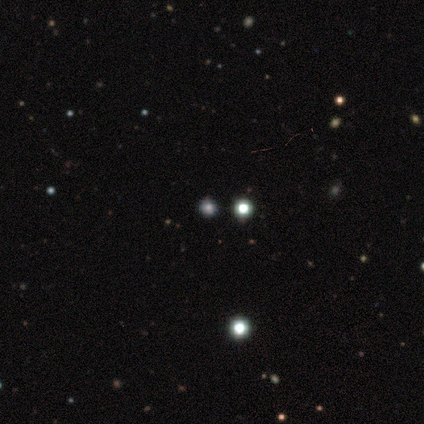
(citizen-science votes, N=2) A featured or disk galaxy (50%, tied with star or artifact) with no bar (100%), no spiral arms (100%) and a dominant central bulge (100%).

Vote fractions:
- Smooth or featured? featured or disk: 50% (tied) / star or artifact: 50% (tied) / smooth: 0%
- Edge-on disk? no: 100% / yes: 0%
- Bar? no: 100% / strong: 0% / weak: 0%
- Spiral arms? no: 100% / yes: 0%
- Bulge size? dominant: 100% / large: 0% / moderate: 0% / small: 0% / none: 0%
- Merging? none: 100% / minor disturbance: 0% / major disturbance: 0% / merger: 0%